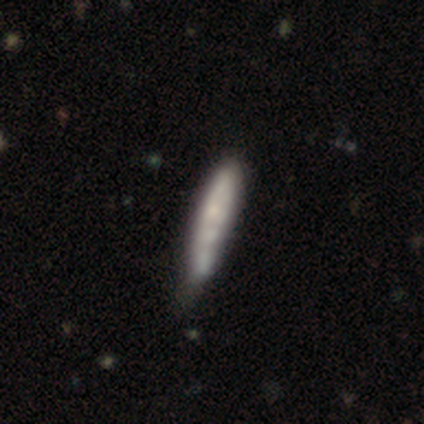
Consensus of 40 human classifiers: Smooth or featured?
  - smooth: 50% *
  - featured or disk: 48%
  - star or artifact: 2%
How rounded?
  - cigar-shaped: 95% *
  - in between: 5%
  - round: 0%
Merging?
  - minor disturbance: 21% *
  - none: 13%
  - merger: 13%
  - major disturbance: 5%